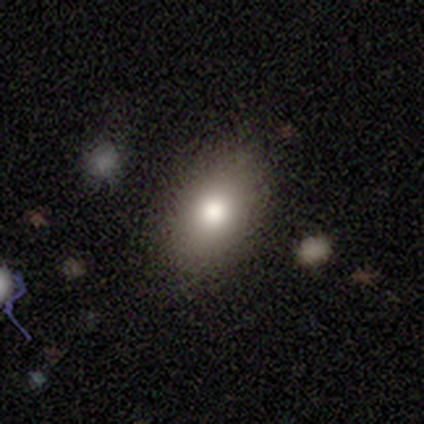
This is clearly a smooth galaxy (82%). How rounded: clearly in between (94%). Merging: clearly none (83%).